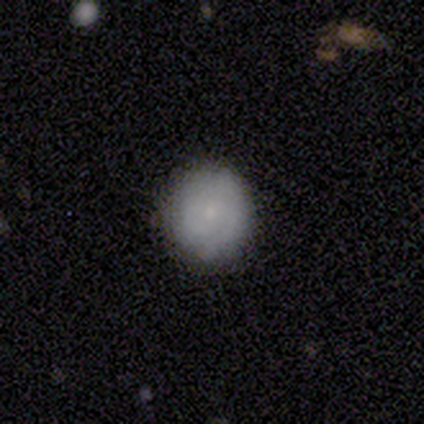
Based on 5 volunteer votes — Smooth or featured: smooth — 60% (featured or disk — 40%)
How rounded: round — 100%
Merging: none — 100%